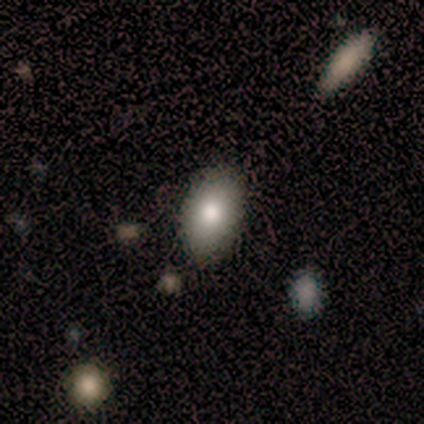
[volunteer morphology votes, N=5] Smooth or featured? smooth (100%)
How rounded? in between (100%)
Merging? none (100%)